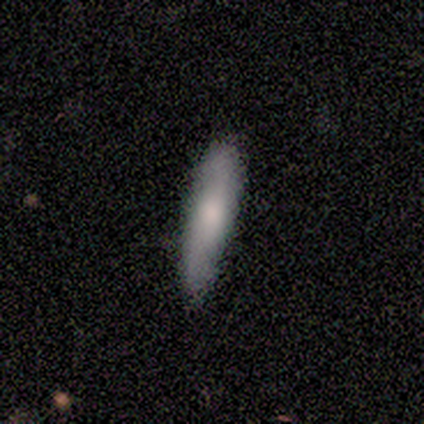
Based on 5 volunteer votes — Smooth or featured? smooth (40%, tied with star or artifact)
How rounded? round (50%, tied with cigar-shaped)
Merging? none (67%)